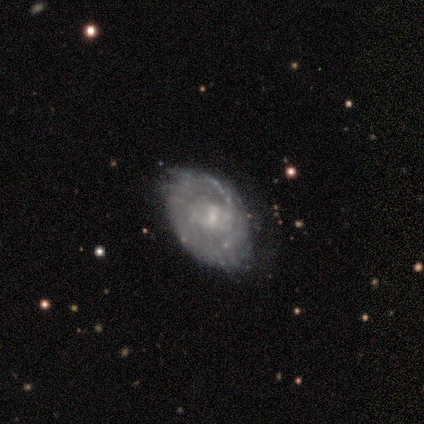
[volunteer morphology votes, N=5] Smooth or featured? featured or disk (80%)
Edge-on disk? no (100%)
Bar? no (75%)
Spiral arms? yes (75%)
Spiral winding? tight (67%)
Spiral arm count? can't tell (67%)
Bulge size? small (100%)
Merging? none (60%)